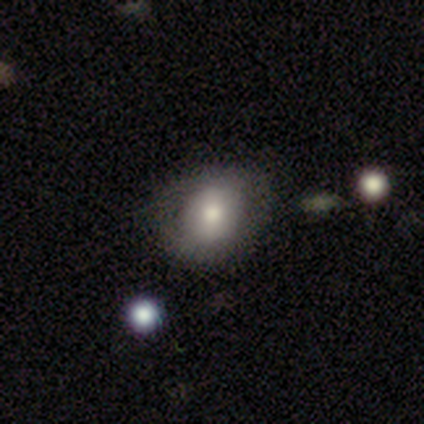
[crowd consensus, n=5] A smooth galaxy with no disk features (80%) that is round (75%).

Vote fractions:
- Smooth or featured? smooth: 80% / featured or disk: 20% / star or artifact: 0%
- How rounded? round: 75% / in between: 25% / cigar-shaped: 0%
- Merging? none: 80% / minor disturbance: 20% / major disturbance: 0% / merger: 0%